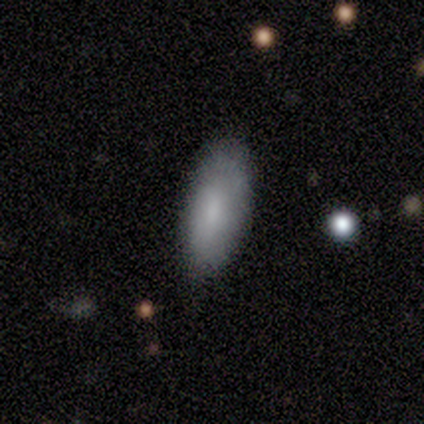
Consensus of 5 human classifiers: A smooth galaxy with no disk features (60%) that is in between round and cigar-shaped (100%). Merging: none (60%).